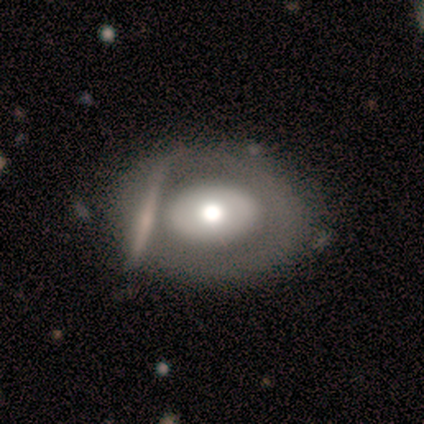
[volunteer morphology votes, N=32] smooth_or_featured: featured or disk (p=0.53) [alt: smooth p=0.41]
disk_edge_on: no (p=0.88) [alt: yes p=0.12]
bar: no (p=1.00)
has_spiral_arms: no (p=1.00)
bulge_size: moderate (p=0.60) [alt: large p=0.40]
merging: merger (p=0.47) [alt: none p=0.03]